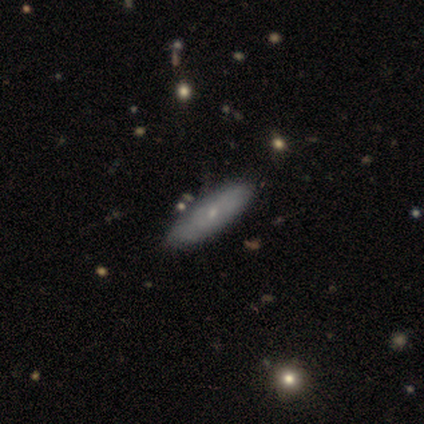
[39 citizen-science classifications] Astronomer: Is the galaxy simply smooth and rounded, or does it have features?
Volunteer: smooth — 54% (runner-up: featured or disk, 41%).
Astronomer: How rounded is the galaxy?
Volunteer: in between — 62% (runner-up: cigar-shaped, 38%).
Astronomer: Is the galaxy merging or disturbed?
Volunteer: none — 54%.